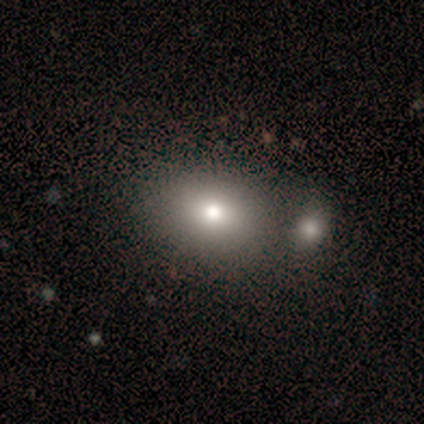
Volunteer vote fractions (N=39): Smooth or featured? smooth (74%)
How rounded? in between (72%)
Merging? none (56%)